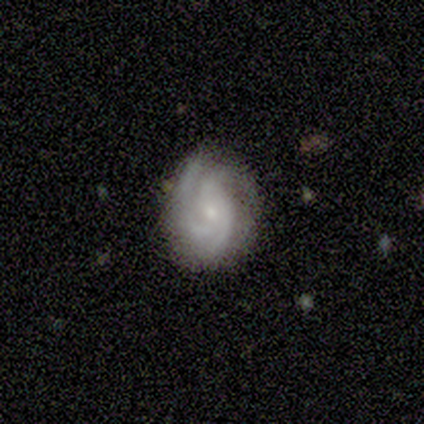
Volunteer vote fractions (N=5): A featured or disk galaxy (80%) with a weak bar (50%, tied with no), 3 (75%) tight (75%) spiral arms (100%) and a moderate central bulge (50%, tied with none).

Vote fractions:
- Smooth or featured? featured or disk: 80% / smooth: 20% / star or artifact: 0%
- Edge-on disk? no: 100% / yes: 0%
- Bar? weak: 50% (tied) / no: 50% (tied) / strong: 0%
- Spiral arms? yes: 100% / no: 0%
- Spiral winding? tight: 75% / medium: 25% / loose: 0%
- Spiral arm count? 3: 75% / 4: 25% / 1: 0% / 2: 0% / more than 4: 0% / can't tell: 0%
- Bulge size? moderate: 50% (tied) / none: 50% (tied) / dominant: 0% / large: 0% / small: 0%
- Merging? none: 60% / minor disturbance: 20% / merger: 20% / major disturbance: 0%